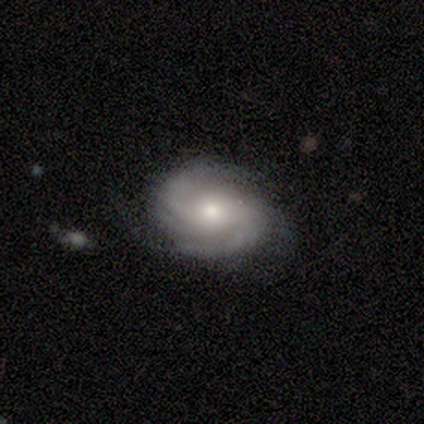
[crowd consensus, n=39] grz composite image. It shows a featured or disk galaxy (87%) with no bar (76%), tight (58%) spiral arms (97%) and a moderate central bulge (59%). Merging: none (79%).